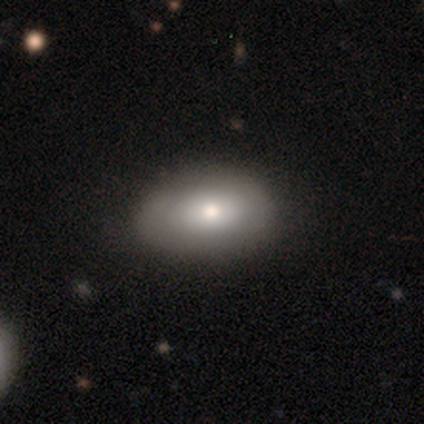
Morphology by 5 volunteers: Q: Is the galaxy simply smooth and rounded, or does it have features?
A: smooth — 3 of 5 (60%).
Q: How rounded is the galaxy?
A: in between — 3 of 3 (100%).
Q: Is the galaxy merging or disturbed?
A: none — 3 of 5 (60%).